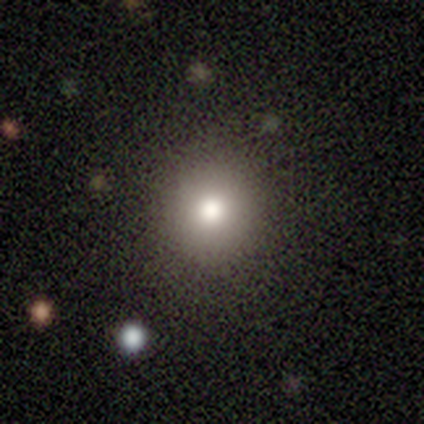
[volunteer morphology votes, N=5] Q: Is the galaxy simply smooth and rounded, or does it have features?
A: smooth — 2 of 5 (40%, tied with star or artifact).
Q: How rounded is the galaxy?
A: round — 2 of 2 (100%).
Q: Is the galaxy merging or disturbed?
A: none — 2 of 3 (67%).